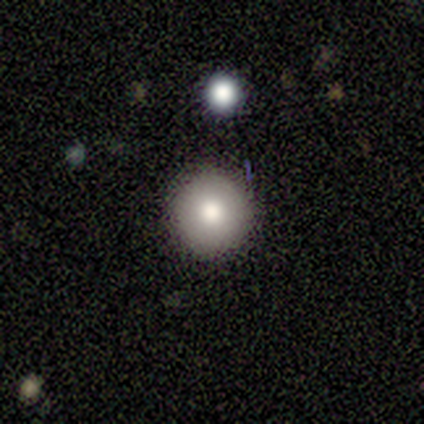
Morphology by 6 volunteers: A smooth galaxy with no disk features (100%) that is round (100%).

Vote fractions:
- Smooth or featured? smooth: 100% / featured or disk: 0% / star or artifact: 0%
- How rounded? round: 100% / in between: 0% / cigar-shaped: 0%
- Merging? none: 83% / minor disturbance: 17% / major disturbance: 0% / merger: 0%